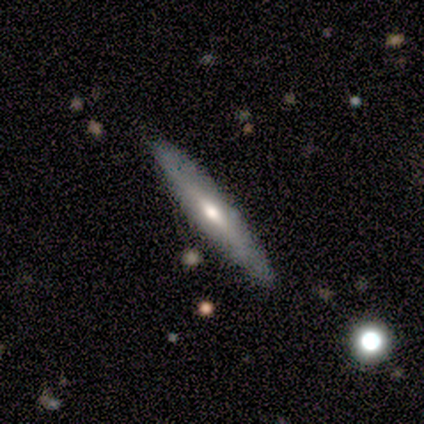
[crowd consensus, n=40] Smooth or featured? featured or disk (52%)
Edge-on disk? yes (90%)
Edge-on bulge? rounded (79%)
Merging? none (85%)